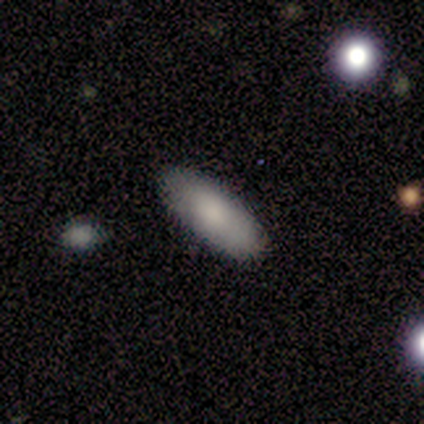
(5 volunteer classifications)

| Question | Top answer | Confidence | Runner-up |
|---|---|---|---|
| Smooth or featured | smooth | 100% | — |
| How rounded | in between | 80% | cigar-shaped (20%) |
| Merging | none | 100% | — |